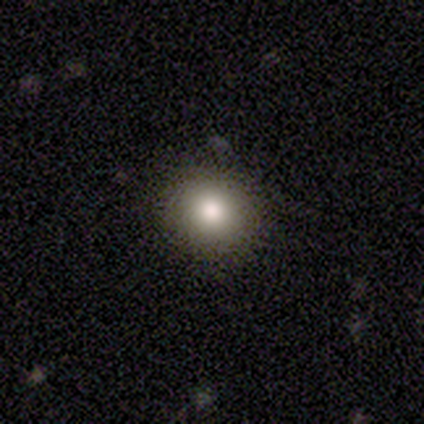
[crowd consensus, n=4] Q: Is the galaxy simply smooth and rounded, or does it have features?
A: smooth — 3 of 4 (75%).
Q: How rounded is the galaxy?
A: round — 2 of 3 (67%).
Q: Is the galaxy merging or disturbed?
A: none — 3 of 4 (75%).